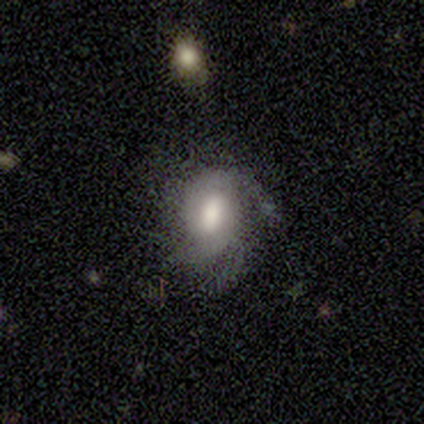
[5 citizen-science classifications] Smooth or featured? 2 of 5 (40%, tied with featured or disk) said smooth. How rounded? 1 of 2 (50%, tied with in between) said round. Merging? 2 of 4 (50%) said none.